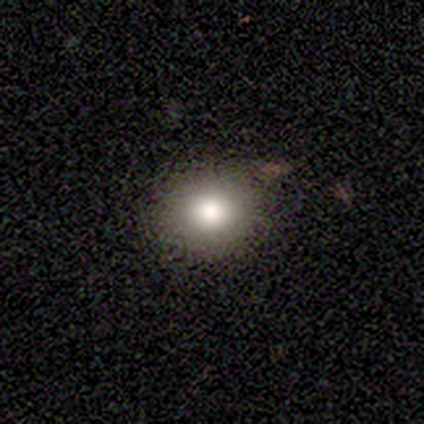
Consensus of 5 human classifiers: A smooth galaxy with no disk features (60%) that is round (100%). Merging: none (100%).